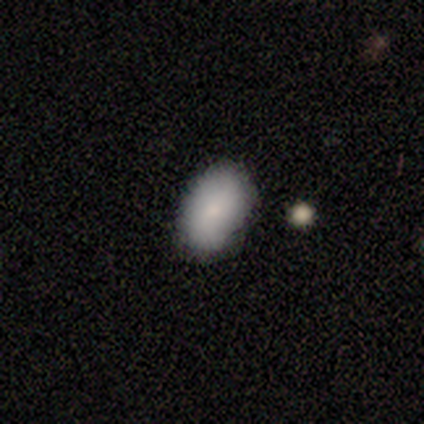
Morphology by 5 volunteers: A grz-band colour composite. It shows a smooth galaxy with no disk features (60%) that is in between round and cigar-shaped (100%). Merging: none (75%).